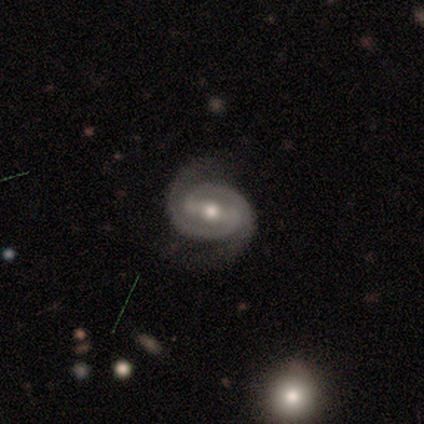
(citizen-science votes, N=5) Smooth or featured?
  - featured or disk: 80% *
  - star or artifact: 20%
  - smooth: 0%
Edge-on disk?
  - no: 100% *
  - yes: 0%
Bar?
  - strong: 75% *
  - weak: 25%
  - no: 0%
Spiral arms?
  - yes: 100% *
  - no: 0%
Spiral winding?
  - tight: 50% * (tied)
  - medium: 50% * (tied)
  - loose: 0%
Spiral arm count?
  - 2: 100% *
  - 1: 0%
  - 3: 0%
  - 4: 0%
  - more than 4: 0%
  - can't tell: 0%
Bulge size?
  - moderate: 75% *
  - small: 25%
  - dominant: 0%
  - large: 0%
  - none: 0%
Merging?
  - none: 50% * (tied)
  - minor disturbance: 50% * (tied)
  - major disturbance: 0%
  - merger: 0%